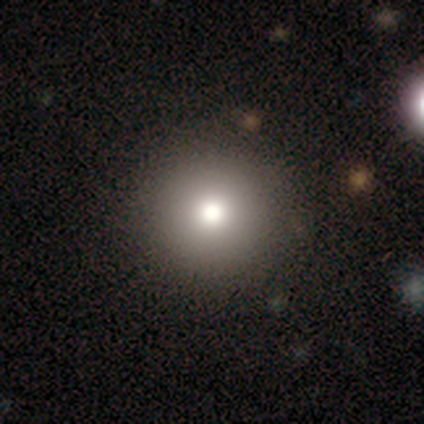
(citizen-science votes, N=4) smooth_or_featured: smooth (p=0.75) [alt: featured or disk p=0.25]
how_rounded: round (p=1.00)
merging: none (p=1.00)